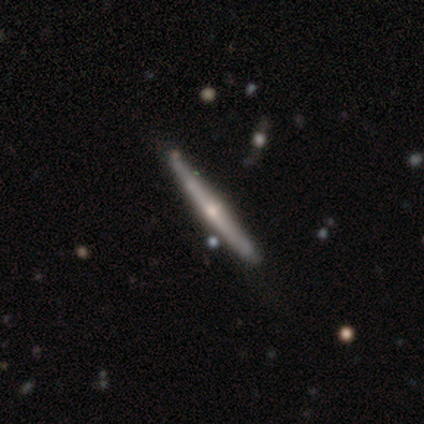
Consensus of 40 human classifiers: Volunteers were most divided on "merging": none: 55%, minor disturbance: 12%, merger: 10%, major disturbance: 0%. More confident: edge-on disk — yes (97%); edge-on bulge — rounded (83%); smooth or featured — featured or disk (78%).